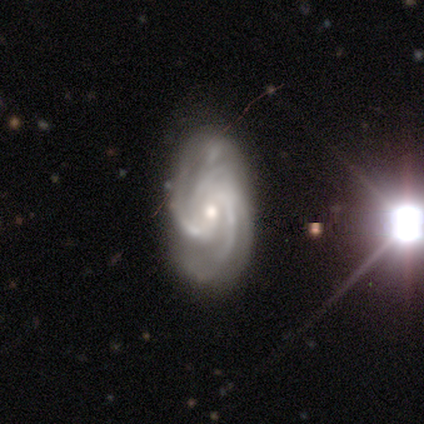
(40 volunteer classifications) smooth_or_featured: featured or disk (p=1.00)
disk_edge_on: no (p=1.00)
bar: no (p=0.68) [alt: weak p=0.17]
has_spiral_arms: yes (p=1.00)
spiral_winding: medium (p=0.55) [alt: tight p=0.40]
spiral_arm_count: 2 (p=0.30) [alt: 3 p=0.28]
bulge_size: moderate (p=0.53) [alt: small p=0.45]
merging: none (p=0.68) [alt: minor disturbance p=0.28]